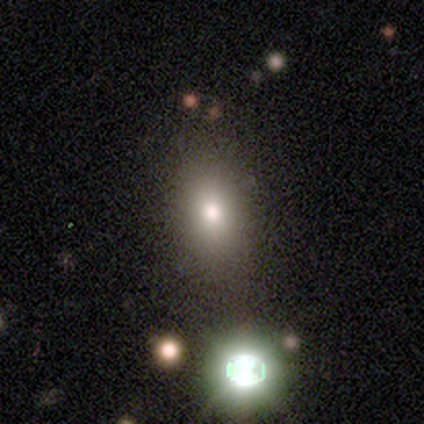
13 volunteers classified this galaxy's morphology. type=smooth (62%); roundness=in between (75%); merging=none (89%).